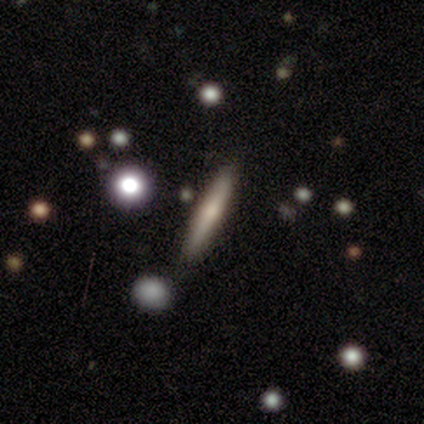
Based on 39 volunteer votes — Smooth or featured: smooth — 51% (featured or disk — 38%)
How rounded: cigar-shaped — 100%
Merging: none — 89% (minor disturbance — 6%)